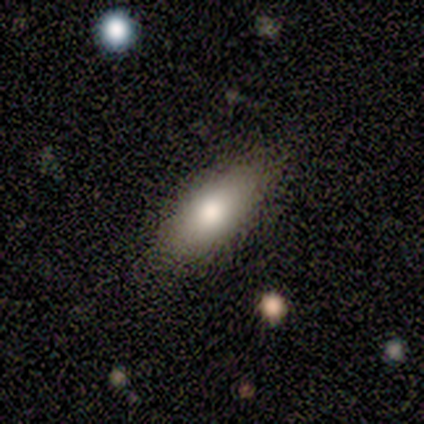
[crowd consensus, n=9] This is clearly a smooth galaxy (89%). How rounded: clearly in between (88%). Merging: likely none (78%).